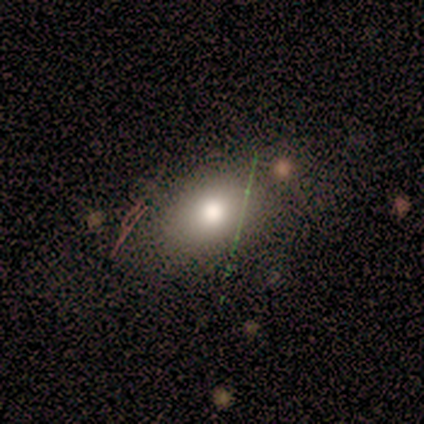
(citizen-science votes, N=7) Smooth or featured: smooth — 71% (star or artifact — 29%)
How rounded: in between — 100%
Merging: none — 80% (merger — 20%)